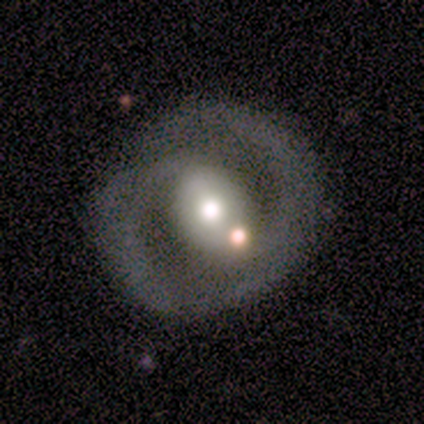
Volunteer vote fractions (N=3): This appears to be a featured or disk galaxy (100%) with a weak bar (50%, tied with no), 2 (100%) medium (100%) spiral arms (50%, tied with no) and a moderate central bulge (100%). Merging: none (33%, tied with minor disturbance and major disturbance).